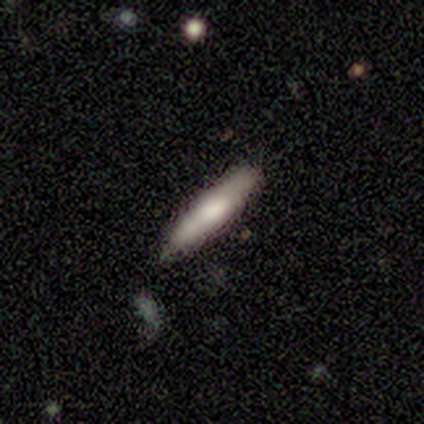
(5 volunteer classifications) Consensus on every question: smooth or featured — smooth (100%); how rounded — cigar-shaped (100%); merging — none (100%).